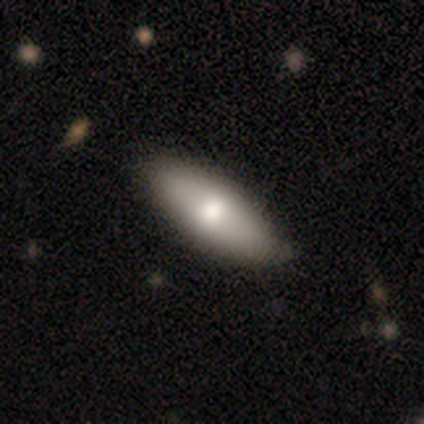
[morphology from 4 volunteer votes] Smooth or featured? 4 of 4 (100%) said smooth. How rounded? 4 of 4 (100%) said in between. Merging? 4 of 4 (100%) said none.